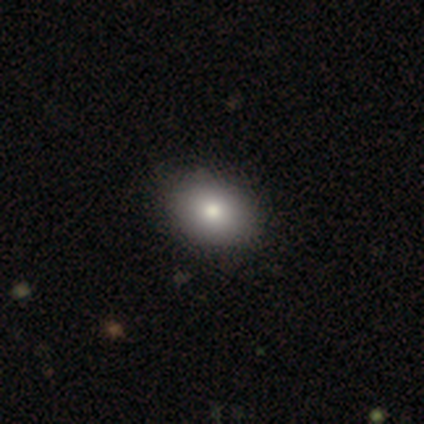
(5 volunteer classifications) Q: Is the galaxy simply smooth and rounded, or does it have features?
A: smooth — 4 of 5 (80%).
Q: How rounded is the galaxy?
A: in between — 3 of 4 (75%).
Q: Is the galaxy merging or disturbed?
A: none — 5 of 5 (100%).